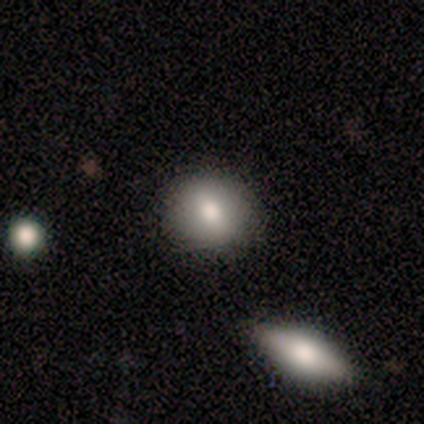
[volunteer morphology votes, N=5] type=smooth (80%); roundness=round (75%); merging=none (100%).